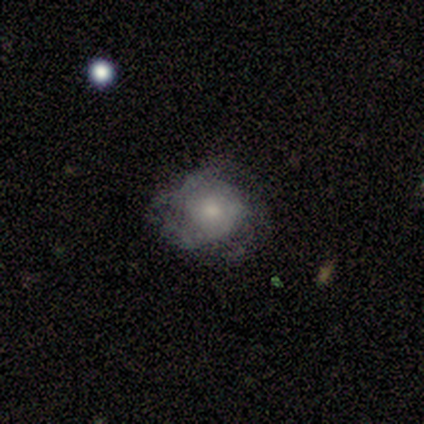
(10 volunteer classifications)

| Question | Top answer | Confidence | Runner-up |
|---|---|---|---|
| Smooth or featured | smooth | 70% | featured or disk (30%) |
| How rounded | round | 86% | in between (14%) |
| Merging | none | 50% | major disturbance (30%) |